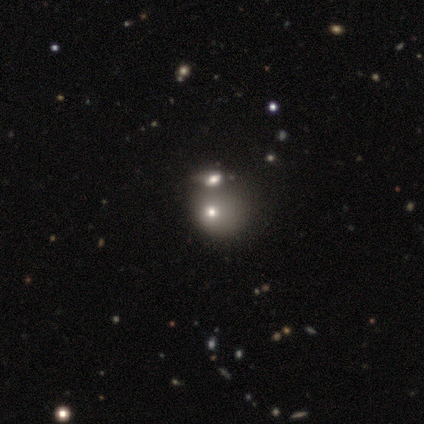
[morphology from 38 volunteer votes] smooth 42% (tied), star or artifact 42% (tied), featured or disk 16%. Down the decision tree: how rounded — round (62%); merging — merger (59%).